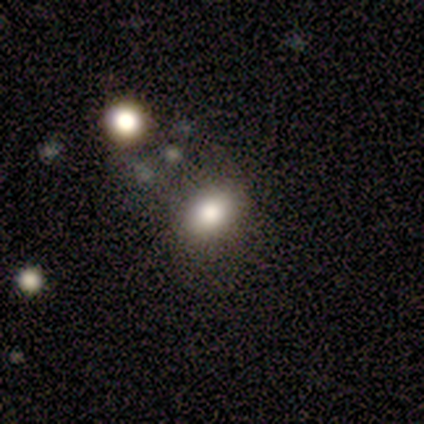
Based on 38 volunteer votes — Smooth or featured? smooth (55%)
How rounded? in between (71%)
Merging? none (67%)